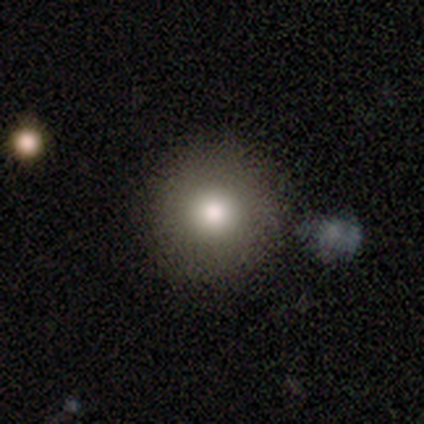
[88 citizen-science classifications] Smooth or featured: smooth — 70% (featured or disk — 16%)
How rounded: round — 97% (cigar-shaped — 3%)
Merging: none — 78% (minor disturbance — 9%)